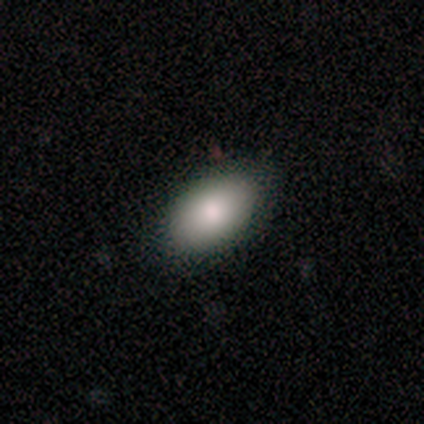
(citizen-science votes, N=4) Overall: smooth (100%). How rounded: in between (100%). Merging: none (100%).